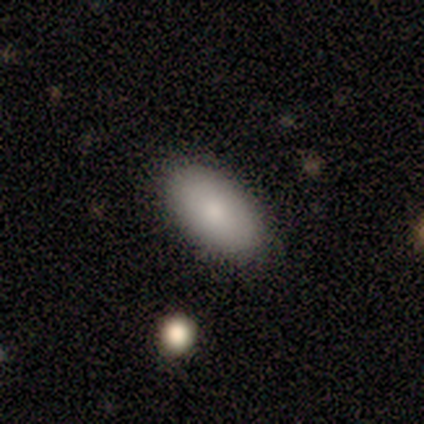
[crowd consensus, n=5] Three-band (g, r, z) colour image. It shows a smooth galaxy with no disk features (60%) that is in between round and cigar-shaped (100%). Merging: none (100%).